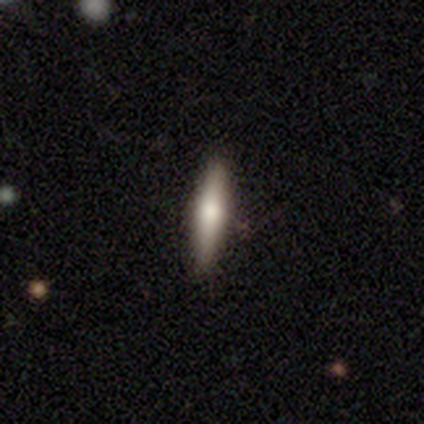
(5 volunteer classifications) A smooth galaxy with no disk features (80%) that is cigar-shaped (100%). Merging: none (100%).